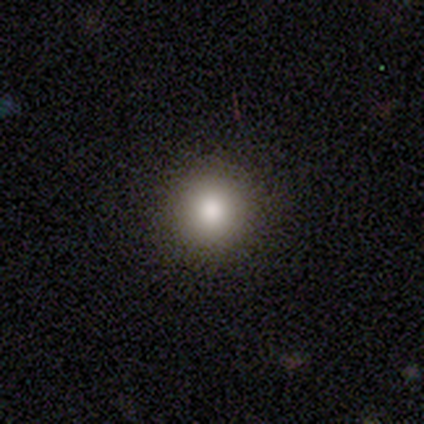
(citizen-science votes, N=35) A smooth galaxy with no disk features (86%) that is round (97%). Merging: none (94%).